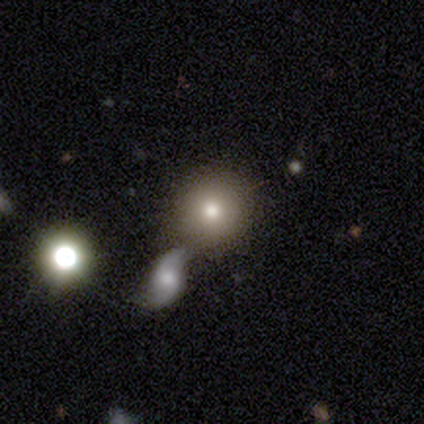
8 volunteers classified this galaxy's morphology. This appears to be a smooth galaxy with no disk features (50%) that is round (100%). Merging: none (67%).